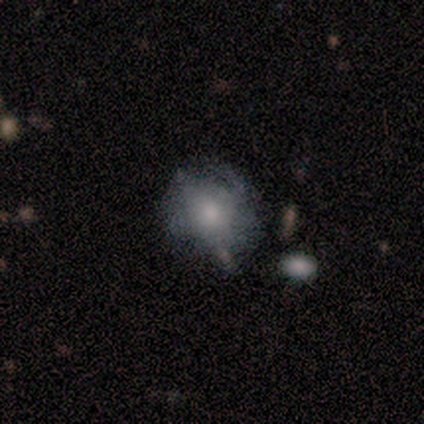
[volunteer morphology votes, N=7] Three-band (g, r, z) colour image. It shows a smooth galaxy with no disk features (43%, tied with featured or disk) that is round (100%). Merging: none (67%).